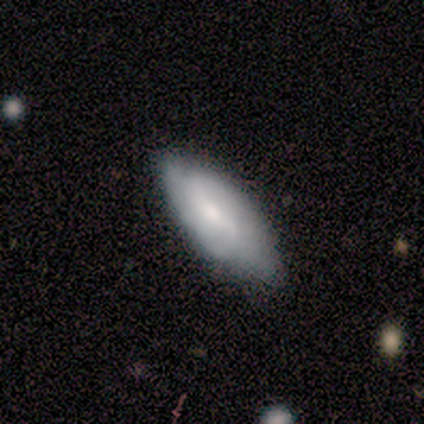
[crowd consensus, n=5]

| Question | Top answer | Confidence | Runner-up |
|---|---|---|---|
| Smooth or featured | smooth | 60% | featured or disk (40%) |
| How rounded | in between | 67% | round (33%) |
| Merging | none | 40% | tied: major disturbance (40%) |